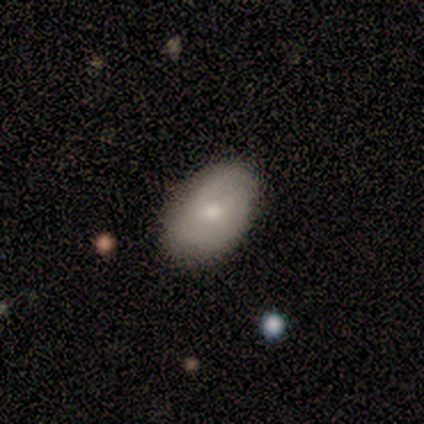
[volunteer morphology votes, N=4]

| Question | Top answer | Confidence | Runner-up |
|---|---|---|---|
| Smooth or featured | featured or disk | 75% | smooth (25%) |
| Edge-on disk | no | 100% | — |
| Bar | no | 67% | weak (33%) |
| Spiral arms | yes | 67% | no (33%) |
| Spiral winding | tight | 100% | — |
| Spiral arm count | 2 | 100% | — |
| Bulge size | small | 67% | moderate (33%) |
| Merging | none | 100% | — |